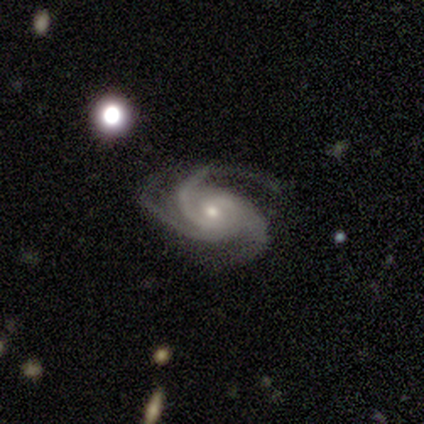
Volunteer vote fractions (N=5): This appears to be a featured or disk galaxy (100%) with no bar (60%), 3 (100%) tight (80%) spiral arms (100%) and a moderate central bulge (60%). Merging: none (60%).